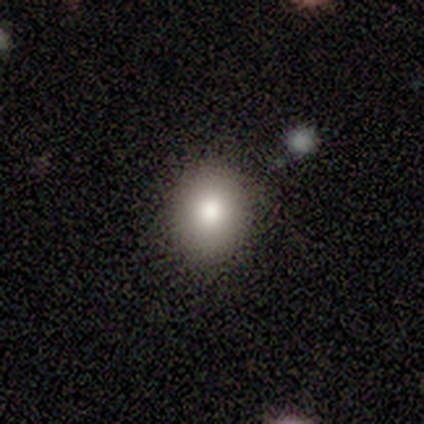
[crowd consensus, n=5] This is clearly a smooth galaxy (80%). How rounded: likely round (75%). Merging: likely none (75%).